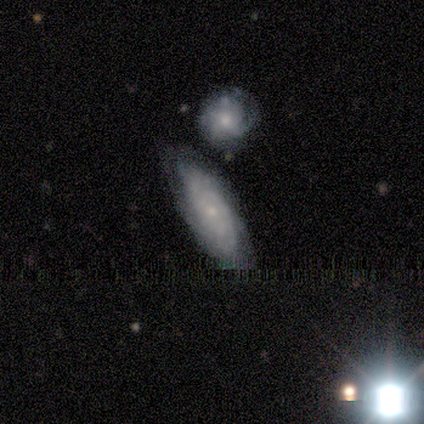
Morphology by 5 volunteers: This is likely a featured or disk galaxy (60%). It is likely not viewed edge-on (67%). Bar: clearly no (100%). Spiral arm pattern: possibly yes (50%, tied with no). Spiral arm count: clearly can't tell (100%). Spiral winding: clearly medium (100%). Central bulge: clearly small (100%). Merging: likely none (60%).